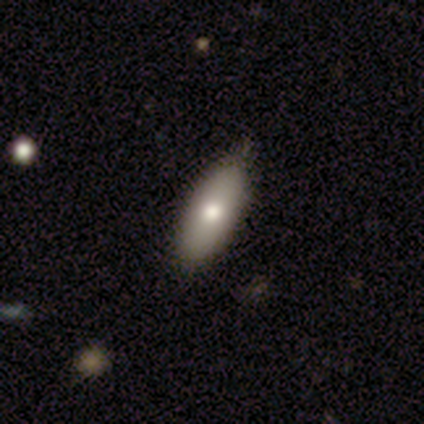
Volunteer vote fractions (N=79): Smooth or featured? smooth (81%)
How rounded? in between (73%)
Merging? none (53%)